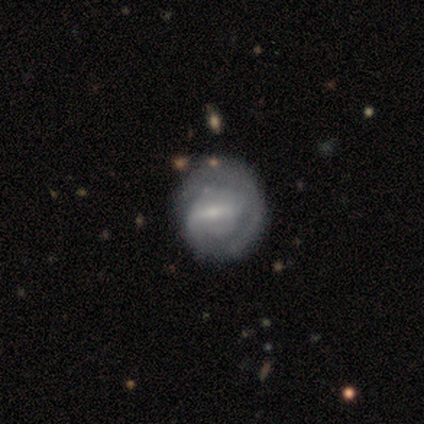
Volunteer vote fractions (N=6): This is possibly a featured or disk galaxy (50%). It is clearly not viewed edge-on (100%). Bar: likely weak (67%). Spiral arm pattern: clearly yes (100%). Spiral arm count: likely 2 (67%). Spiral winding: clearly tight (100%). Central bulge: likely small (67%). Merging: clearly none (80%).